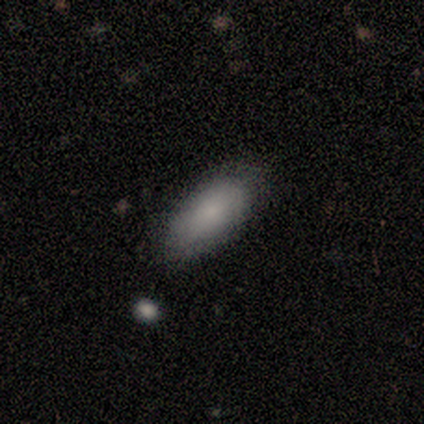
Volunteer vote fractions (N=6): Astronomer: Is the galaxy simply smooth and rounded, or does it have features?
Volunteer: smooth — 83%.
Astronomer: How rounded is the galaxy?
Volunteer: in between — 100%.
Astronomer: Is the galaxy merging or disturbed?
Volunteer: none — 83%.